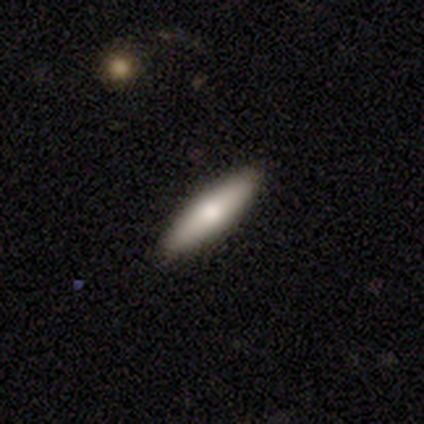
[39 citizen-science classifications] This is likely a smooth galaxy (79%). How rounded: likely cigar-shaped (71%). Merging: likely none (74%).